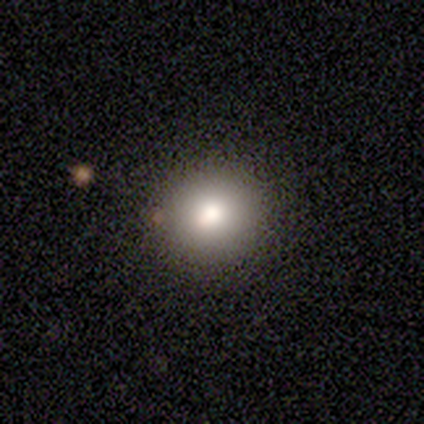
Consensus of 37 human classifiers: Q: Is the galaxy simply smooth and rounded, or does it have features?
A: smooth — 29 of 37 (78%).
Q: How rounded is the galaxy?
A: round — 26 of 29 (90%).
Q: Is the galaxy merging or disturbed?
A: none — 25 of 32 (78%).